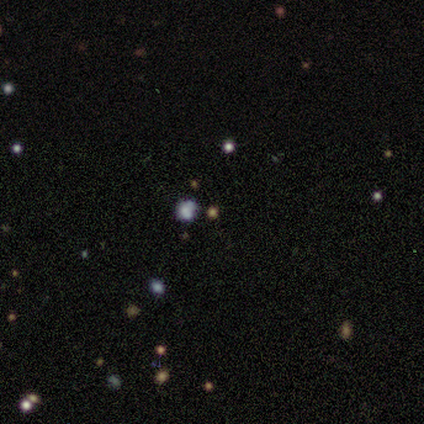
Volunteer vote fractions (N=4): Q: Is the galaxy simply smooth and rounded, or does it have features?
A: smooth — 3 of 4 (75%).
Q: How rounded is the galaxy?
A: round — 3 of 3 (100%).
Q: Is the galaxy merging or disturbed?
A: merger — 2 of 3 (67%).